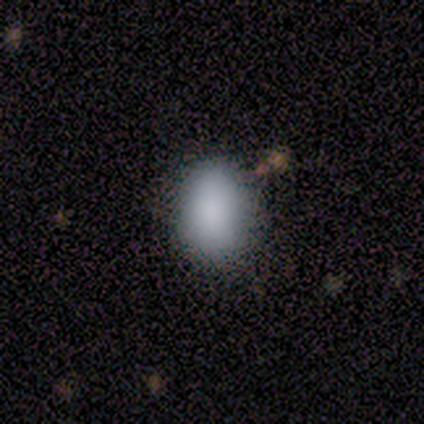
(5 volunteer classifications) Overall: smooth (100%). How rounded: in between (80%). Merging: none (80%).